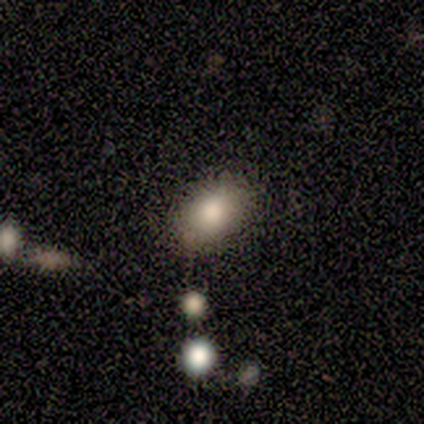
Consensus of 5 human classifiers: A smooth galaxy with no disk features (80%) that is in between round and cigar-shaped (75%).

Vote fractions:
- Smooth or featured? smooth: 80% / star or artifact: 20% / featured or disk: 0%
- How rounded? in between: 75% / round: 25% / cigar-shaped: 0%
- Merging? none: 75% / minor disturbance: 25% / major disturbance: 0% / merger: 0%